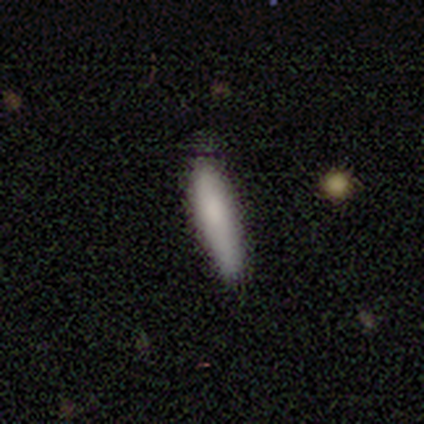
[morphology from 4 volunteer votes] Volunteers were most divided on "smooth or featured" (2-way tie): smooth: 50%, featured or disk: 50%, star or artifact: 0%. More confident: how rounded — cigar-shaped (100%); merging — none (100%).